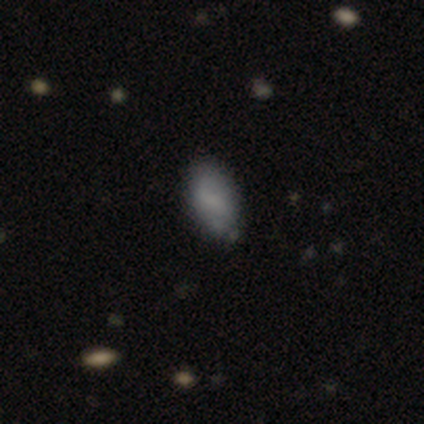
This appears to be a smooth galaxy with no disk features (80%) that is in between round and cigar-shaped (100%). Merging: none (60%).